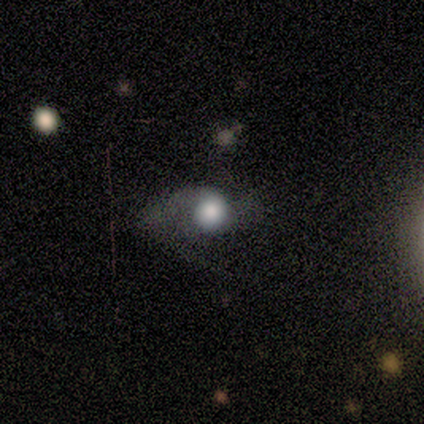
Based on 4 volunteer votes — Volunteers were most divided on "smooth or featured" (2-way tie): smooth: 50%, featured or disk: 50%, star or artifact: 0%; "merging" (2-way tie): none: 50%, major disturbance: 50%, minor disturbance: 0%, merger: 0%. More confident: how rounded — round (100%).